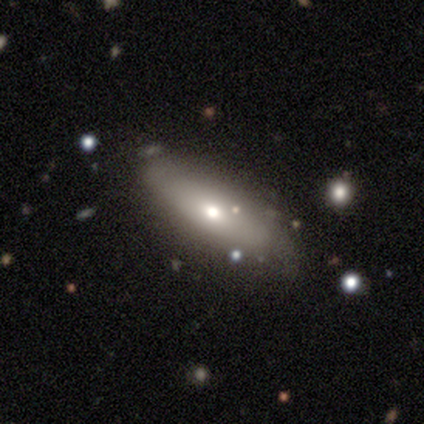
A featured or disk galaxy (58%) with no bar (100%), no spiral arms (60%) and a moderate central bulge (60%). Merging: none (67%).